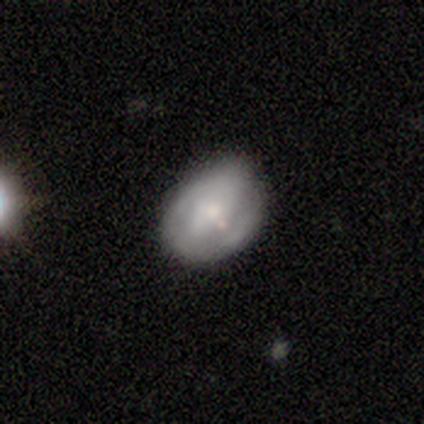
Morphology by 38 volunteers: type=featured or disk (63%); edge-on=no (96%); bar=no (57%); spiral arms=no (61%); bulge=moderate (43%, tied with small); merging=none (67%).